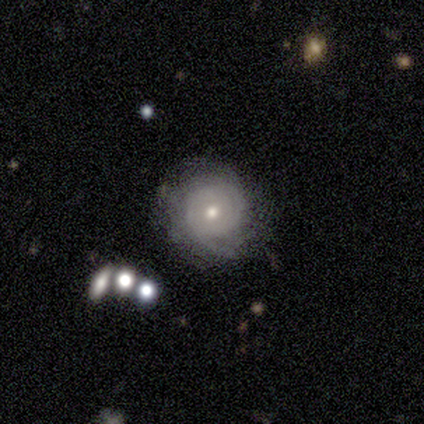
This is likely a featured or disk galaxy (75%). It is clearly not viewed edge-on (100%). Bar: clearly no (100%). Spiral arm pattern: clearly yes (100%). Spiral arm count: likely can't tell (67%). Spiral winding: clearly tight (100%). Central bulge: clearly moderate (100%). Merging: likely none (75%).